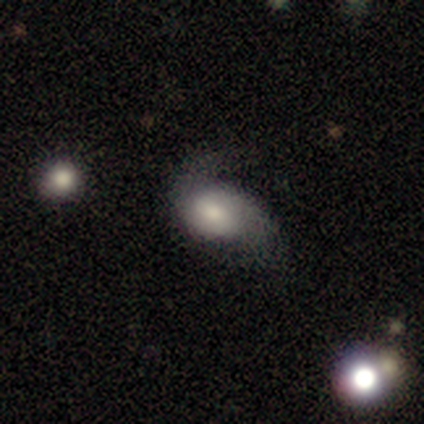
Smooth or featured? smooth (67%)
How rounded? in between (75%)
Merging? none (50%)